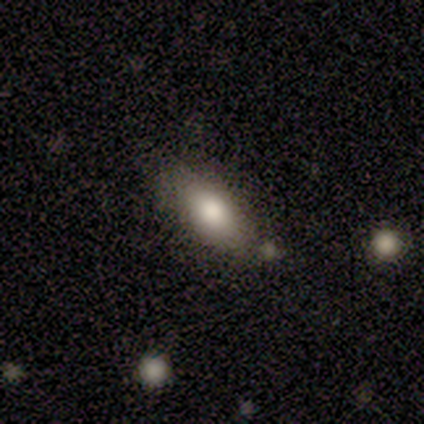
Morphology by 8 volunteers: This is clearly a smooth galaxy (88%). How rounded: clearly in between (100%). Merging: likely none (71%).